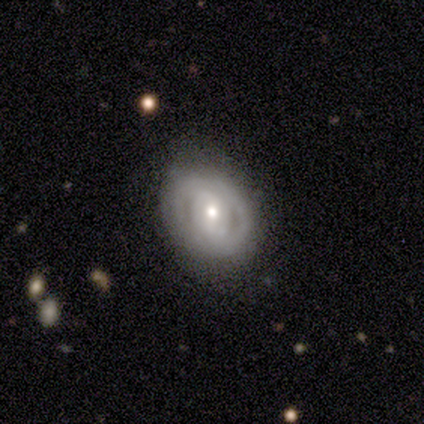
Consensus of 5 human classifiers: smooth-or-featured: featured or disk: 80% | smooth: 20% | star or artifact: 0%
  disk-edge-on: no: 100% | yes: 0%
    bar: weak: 50% | strong: 25% | no: 25%
    has-spiral-arms: yes: 100% | no: 0%
      spiral-winding: tight: 75% | medium: 25% | loose: 0%
      spiral-arm-count: can't tell: 50% | 2: 25% | more than 4: 25% | 1: 0% | 3: 0% | 4: 0%
    bulge-size: moderate: 50% (tied) | small: 50% (tied) | dominant: 0% | large: 0% | none: 0%
  merging: none: 60% | minor disturbance: 40% | major disturbance: 0% | merger: 0%